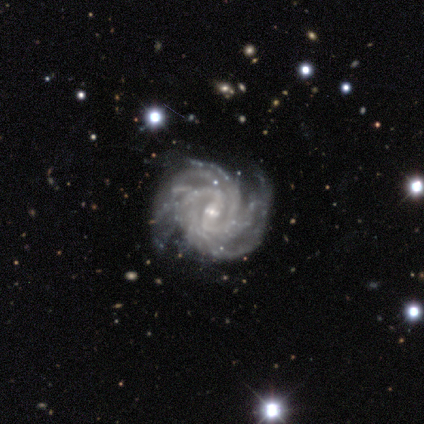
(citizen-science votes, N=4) Smooth or featured: featured or disk — 100%
Edge-on disk: no — 100%
Bar: weak — 50% (strong — 25%)
Spiral arms: yes — 100%
Spiral winding: tight — 75% (medium — 25%)
Spiral arm count: can't tell — 50% (2 — 25%)
Bulge size: small — 100%
Merging: none — 75% (minor disturbance — 25%)